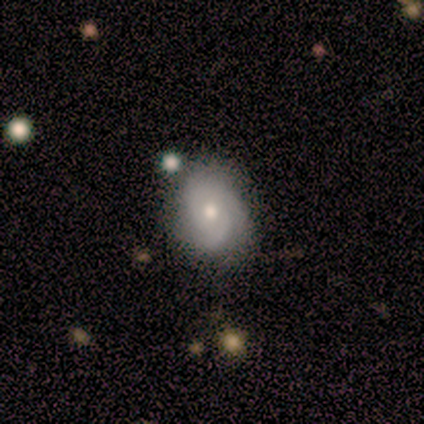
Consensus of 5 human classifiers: Smooth or featured? 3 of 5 (60%) said featured or disk. Edge-on disk? 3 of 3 (100%) said no. Bar? 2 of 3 (67%) said weak. Spiral arms? 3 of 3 (100%) said yes. Spiral winding? 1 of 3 (33%, tied with medium and loose) said tight. Spiral arm count? 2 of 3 (67%) said 2. Bulge size? 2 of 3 (67%) said moderate. Merging? 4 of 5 (80%) said none.